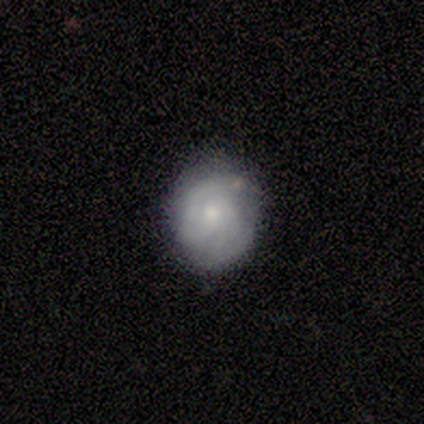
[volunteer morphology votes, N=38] A featured or disk galaxy (53%) with no bar (63%), tight (56%) spiral arms (84%) and a small central bulge (68%).

Vote fractions:
- Smooth or featured? featured or disk: 53% / smooth: 39% / star or artifact: 8%
- Edge-on disk? no: 95% / yes: 5%
- Bar? no: 63% / weak: 37% / strong: 0%
- Spiral arms? yes: 84% / no: 16%
- Spiral winding? tight: 56% / medium: 31% / loose: 12%
- Spiral arm count? can't tell: 44% / 2: 31% / 3: 12% / 1: 6% / 4: 6% / more than 4: 0%
- Bulge size? small: 68% / moderate: 26% / none: 5% / dominant: 0% / large: 0%
- Merging? none: 77% / minor disturbance: 14% / major disturbance: 6% / merger: 3%